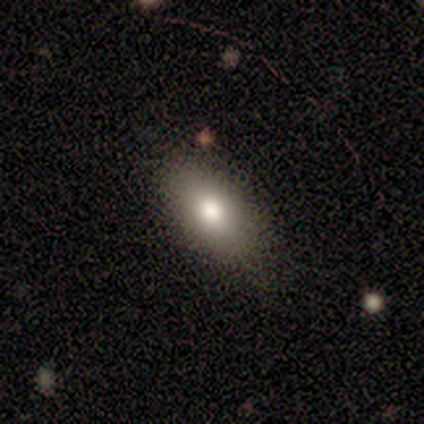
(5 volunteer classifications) This appears to be a smooth galaxy with no disk features (80%) that is in between round and cigar-shaped (75%). Merging: none (80%).